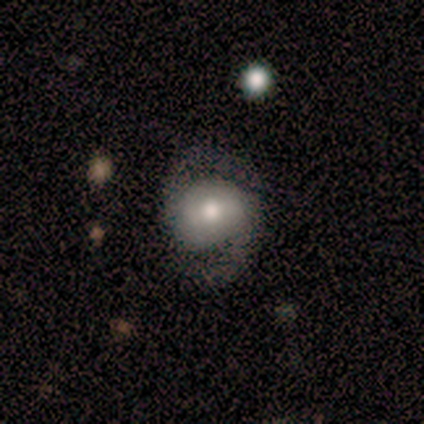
Smooth or featured: smooth — 40% (tied with featured or disk — 40%)
How rounded: round — 50% (tied with in between — 50%)
Merging: none — 75% (minor disturbance — 25%)